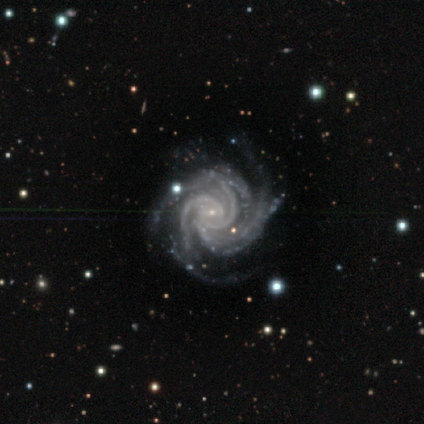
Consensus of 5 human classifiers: Smooth or featured? featured or disk (100%)
Edge-on disk? no (100%)
Bar? weak (60%)
Spiral arms? yes (100%)
Spiral winding? tight (100%)
Spiral arm count? 4 (40%)
Bulge size? small (100%)
Merging? none (40%)